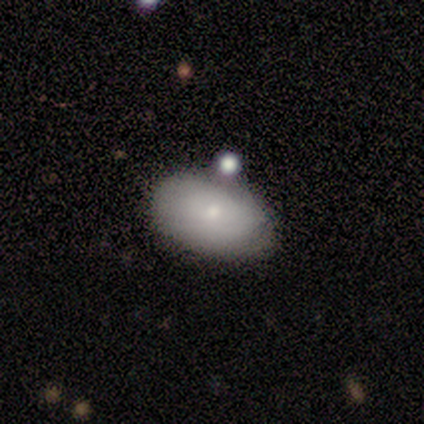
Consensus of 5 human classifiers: This appears to be a smooth galaxy with no disk features (60%) that is in between round and cigar-shaped (100%). Merging: none (60%).